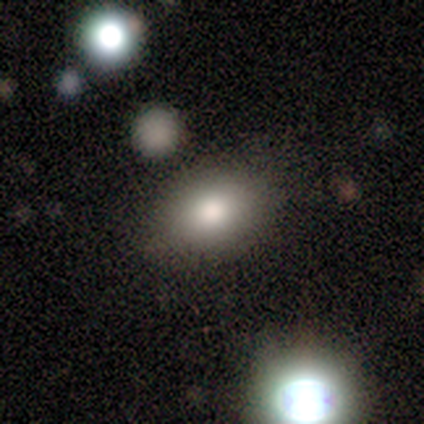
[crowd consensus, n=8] A smooth galaxy with no disk features (75%) that is in between round and cigar-shaped (83%).

Vote fractions:
- Smooth or featured? smooth: 75% / featured or disk: 12% / star or artifact: 12%
- How rounded? in between: 83% / round: 17% / cigar-shaped: 0%
- Merging? none: 71% / minor disturbance: 29% / major disturbance: 0% / merger: 0%